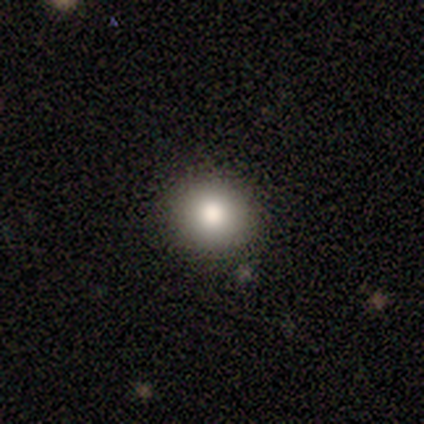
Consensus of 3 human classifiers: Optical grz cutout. It shows a smooth galaxy with no disk features (100%) that is round (67%). Merging: none (100%).